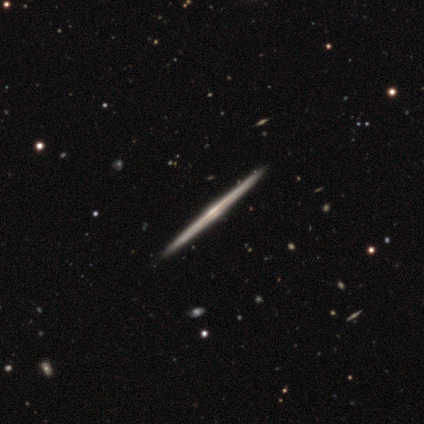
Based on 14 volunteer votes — A featured or disk galaxy (100%) viewed edge-on (100%) with a rounded central bulge (50%). Merging: none (100%).